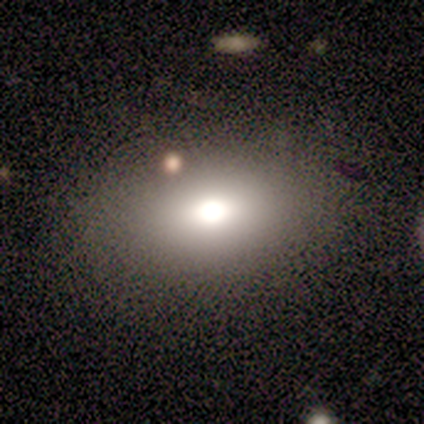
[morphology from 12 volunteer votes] smooth-or-featured: smooth: 75% | star or artifact: 25% | featured or disk: 0%
  how-rounded: in between: 100% | round: 0% | cigar-shaped: 0%
  merging: none: 56% | minor disturbance: 33% | merger: 11% | major disturbance: 0%